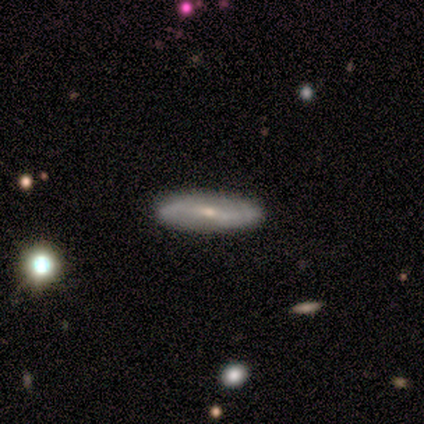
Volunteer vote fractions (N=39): This appears to be a featured or disk galaxy (67%) with a weak bar (41%, tied with no), 2 (100%) loose (62%) spiral arms (76%) and a small central bulge (76%). Merging: none (59%).